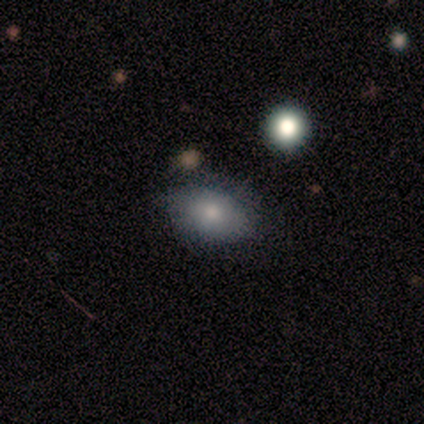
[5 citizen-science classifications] This appears to be a smooth galaxy with no disk features (80%) that is in between round and cigar-shaped (100%). Merging: none (80%).